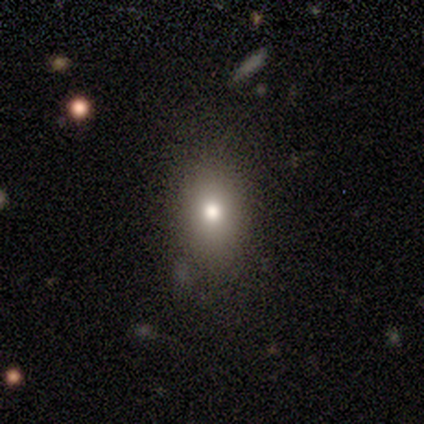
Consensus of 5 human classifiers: smooth 100%, featured or disk 0%, star or artifact 0%. Down the decision tree: how rounded — in between (60%); merging — none (80%).